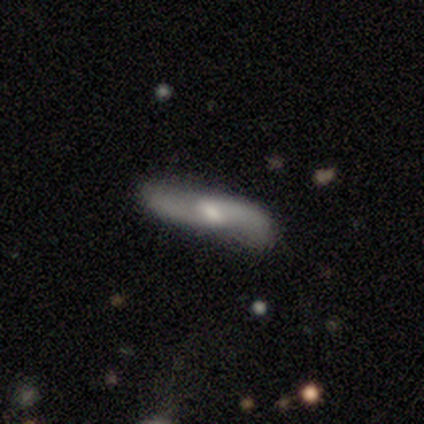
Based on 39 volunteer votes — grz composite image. It shows a featured or disk galaxy (74%) with a weak bar (53%), 2 (89%) loose (94%) spiral arms (95%) and a moderate central bulge (53%). Merging: none (73%).